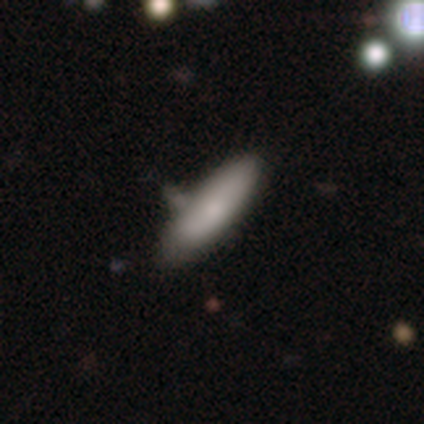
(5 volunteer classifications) Smooth or featured? 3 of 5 (60%) said smooth. How rounded? 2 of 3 (67%) said cigar-shaped. Merging? 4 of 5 (80%) said none.